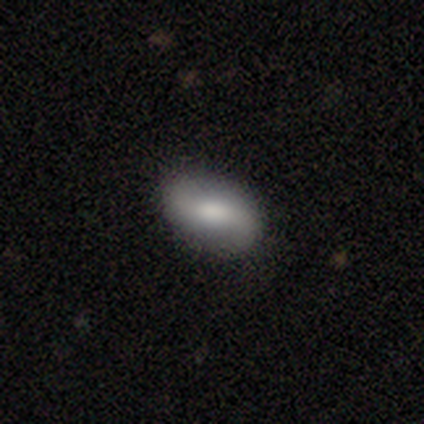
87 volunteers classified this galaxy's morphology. Smooth or featured? 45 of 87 (52%) said smooth. How rounded? 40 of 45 (89%) said in between. Merging? 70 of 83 (84%) said none.